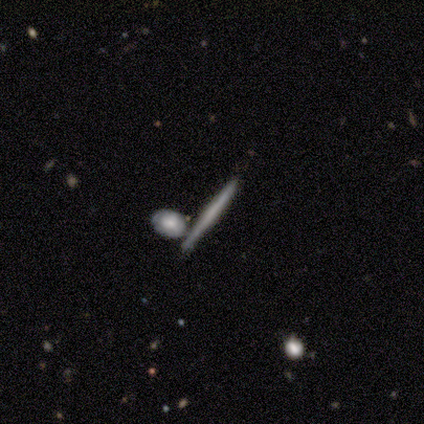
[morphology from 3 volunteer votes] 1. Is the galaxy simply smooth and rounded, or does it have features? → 67% featured or disk, 33% smooth, 0% star or artifact.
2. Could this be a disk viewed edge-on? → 100% yes, 0% no.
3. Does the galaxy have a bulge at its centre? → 50% none (tied), 50% rounded (tied), 0% boxy.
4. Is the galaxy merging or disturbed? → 67% merger, 33% none, 0% minor disturbance, 0% major disturbance.